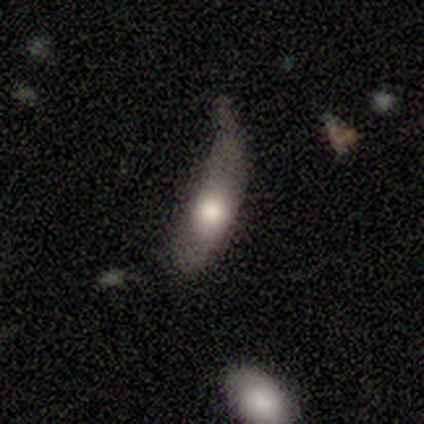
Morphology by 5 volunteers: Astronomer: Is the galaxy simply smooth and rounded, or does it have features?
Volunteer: smooth — 100%.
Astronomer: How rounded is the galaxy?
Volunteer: in between — 80%.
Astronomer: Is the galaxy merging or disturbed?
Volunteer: minor disturbance — 40%, tied with major disturbance at 40%.